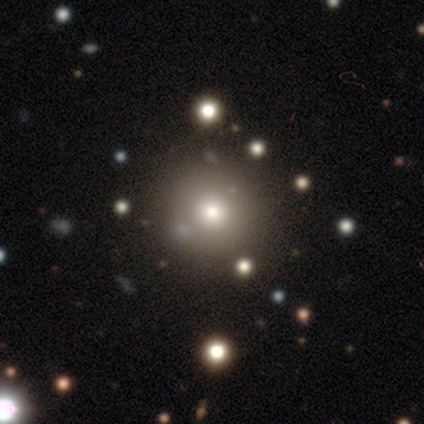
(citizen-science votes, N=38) smooth 68%, featured or disk 18%, star or artifact 13%. Down the decision tree: how rounded — round (92%); merging — none (48%).